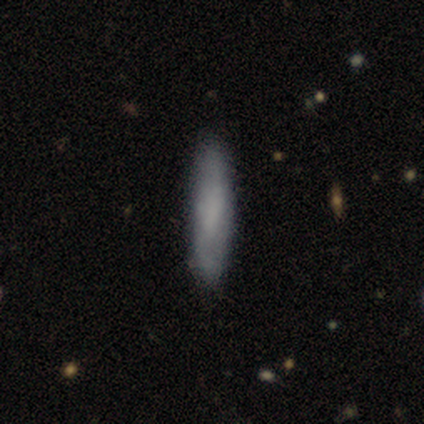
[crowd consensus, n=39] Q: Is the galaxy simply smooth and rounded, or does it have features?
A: smooth — 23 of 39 (59%).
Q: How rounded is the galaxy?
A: cigar-shaped — 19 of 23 (83%).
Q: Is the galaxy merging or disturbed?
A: none — 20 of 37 (54%).